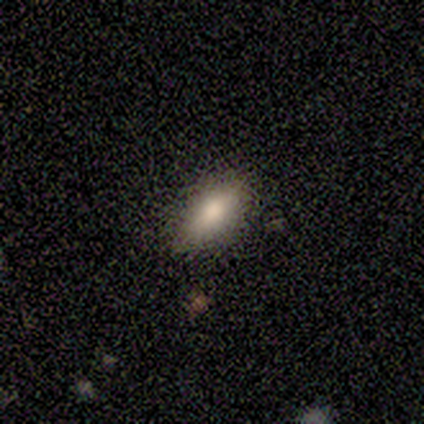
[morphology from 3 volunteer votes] This appears to be a smooth galaxy with no disk features (100%) that is in between round and cigar-shaped (67%). Merging: none (67%).